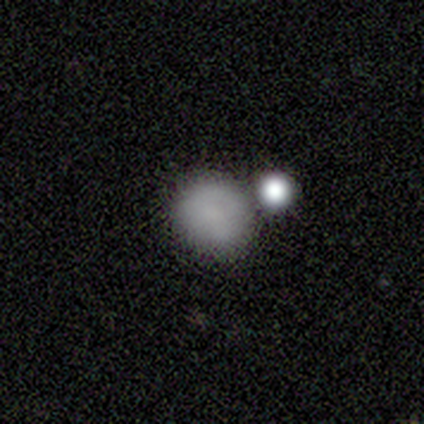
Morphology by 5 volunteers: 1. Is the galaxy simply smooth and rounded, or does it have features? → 100% smooth, 0% featured or disk, 0% star or artifact.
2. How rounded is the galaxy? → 100% round, 0% in between, 0% cigar-shaped.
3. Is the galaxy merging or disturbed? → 60% none, 20% minor disturbance, 20% merger, 0% major disturbance.